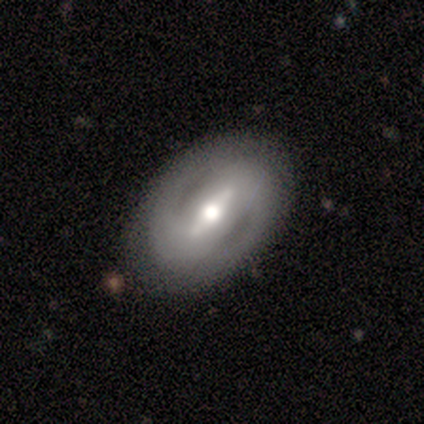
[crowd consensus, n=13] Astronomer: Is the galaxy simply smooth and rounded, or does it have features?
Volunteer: featured or disk — 69%.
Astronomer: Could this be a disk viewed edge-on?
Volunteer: no — 89%.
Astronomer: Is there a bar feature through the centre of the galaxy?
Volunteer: strong — 62%.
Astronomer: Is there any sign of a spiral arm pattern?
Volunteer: yes — 75%.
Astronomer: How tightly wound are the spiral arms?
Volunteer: medium — 50% (runner-up: loose, 33%).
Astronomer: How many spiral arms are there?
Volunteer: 2 — 100%.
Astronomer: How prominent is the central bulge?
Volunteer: moderate — 62%.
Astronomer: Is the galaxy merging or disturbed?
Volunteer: none — 85%.